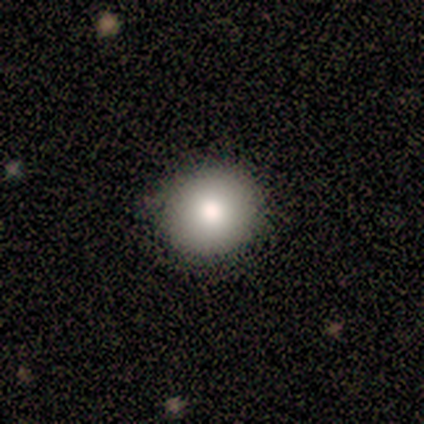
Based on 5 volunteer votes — smooth-or-featured: smooth: 80% | featured or disk: 20% | star or artifact: 0%
  how-rounded: round: 100% | in between: 0% | cigar-shaped: 0%
  merging: none: 100% | minor disturbance: 0% | major disturbance: 0% | merger: 0%